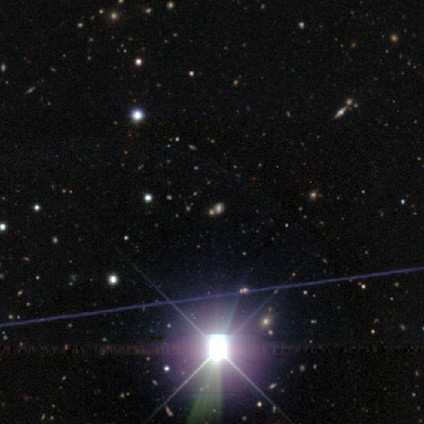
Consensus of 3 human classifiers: Overall: star or artifact (100%).